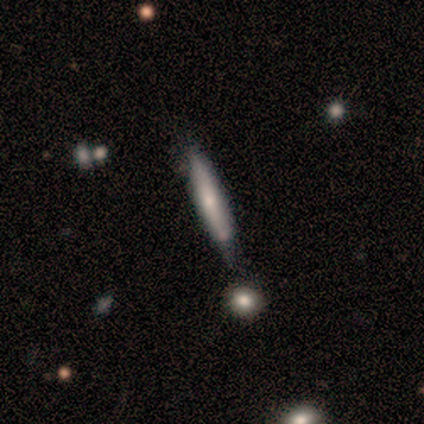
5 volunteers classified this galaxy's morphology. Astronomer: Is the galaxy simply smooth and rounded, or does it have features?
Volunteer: featured or disk — 80%.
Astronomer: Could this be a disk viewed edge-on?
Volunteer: yes — 100%.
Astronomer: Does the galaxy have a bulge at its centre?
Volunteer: none — 50%.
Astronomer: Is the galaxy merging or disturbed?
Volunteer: none — 100%.